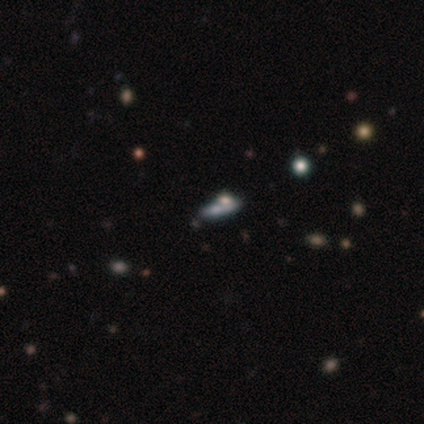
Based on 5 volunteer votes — Overall: smooth (60%; featured or disk 20%). How rounded: in between (67%; cigar-shaped 33%). Merging: none (25%, tied with minor disturbance, major disturbance and merger).